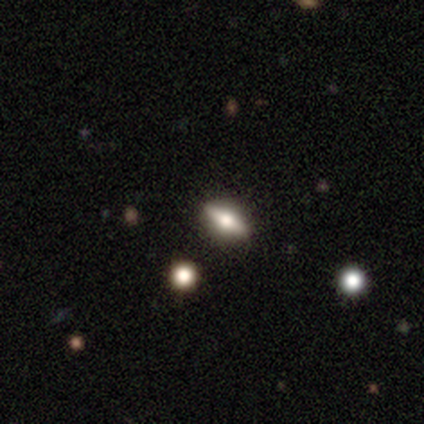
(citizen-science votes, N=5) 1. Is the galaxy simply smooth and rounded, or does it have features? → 80% smooth, 20% star or artifact, 0% featured or disk.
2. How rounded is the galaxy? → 100% in between, 0% round, 0% cigar-shaped.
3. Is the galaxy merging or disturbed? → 75% none, 25% minor disturbance, 0% major disturbance, 0% merger.